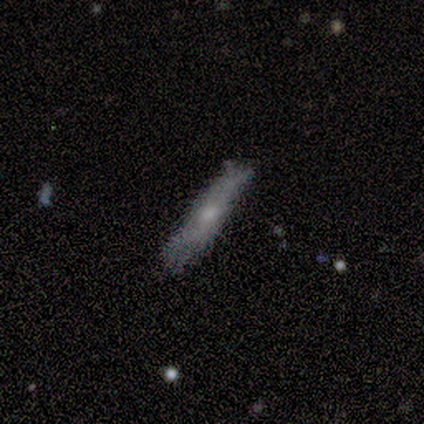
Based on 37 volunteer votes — Overall: smooth (59%; featured or disk 35%). How rounded: cigar-shaped (95%). Merging: none (69%).